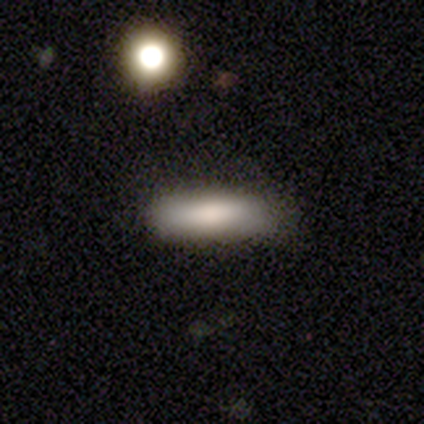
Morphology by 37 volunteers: Volunteers were most divided on "how rounded": cigar-shaped: 67%, in between: 33%, round: 0%. More confident: merging — none (85%); smooth or featured — smooth (81%).